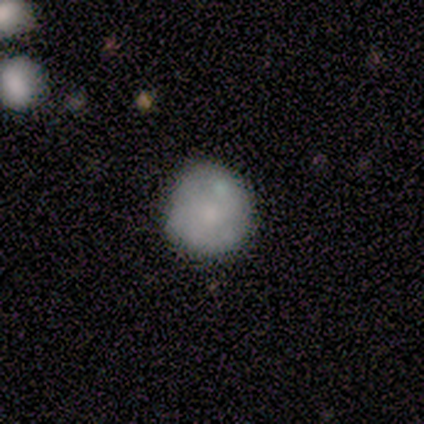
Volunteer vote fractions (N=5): A smooth galaxy with no disk features (60%) that is round (100%). Merging: none (60%).